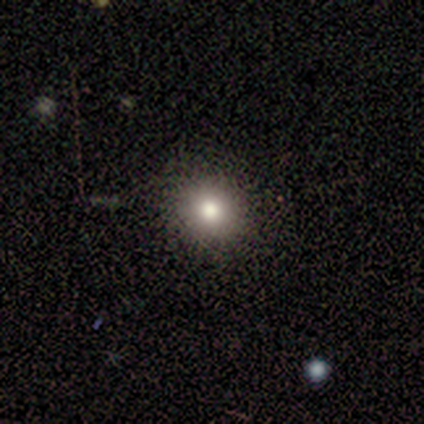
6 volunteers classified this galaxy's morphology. type=smooth (67%); roundness=round (75%); merging=none (80%).